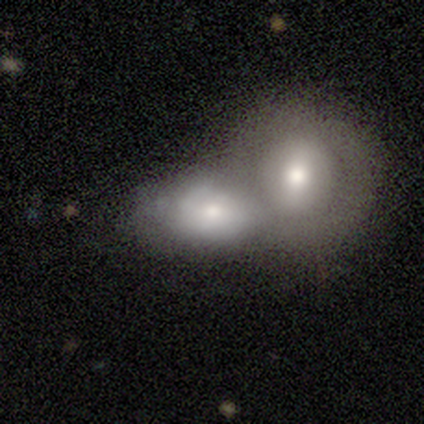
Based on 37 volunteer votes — Smooth or featured: smooth — 62% (featured or disk — 27%)
How rounded: in between — 61% (round — 39%)
Merging: merger — 73% (none — 21%)